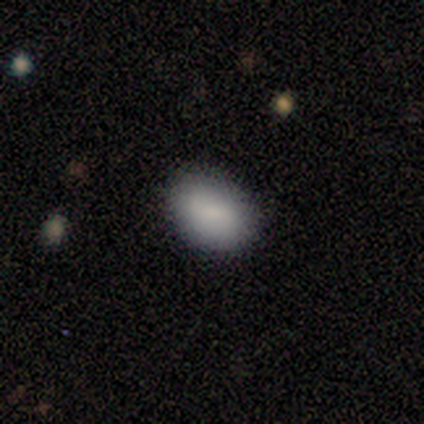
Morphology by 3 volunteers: Volunteers were most divided on "merging": none: 67%, minor disturbance: 33%, major disturbance: 0%, merger: 0%. More confident: smooth or featured — smooth (100%); how rounded — in between (100%).